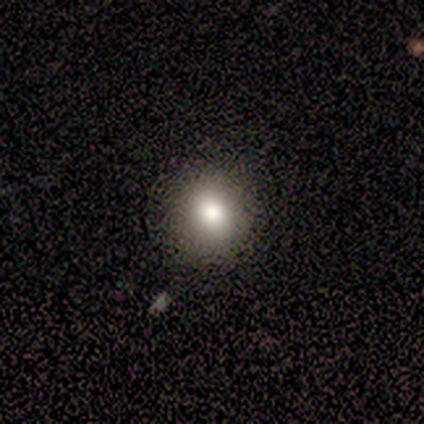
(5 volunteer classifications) Smooth or featured?
  - smooth: 100% *
  - featured or disk: 0%
  - star or artifact: 0%
How rounded?
  - round: 100% *
  - in between: 0%
  - cigar-shaped: 0%
Merging?
  - none: 100% *
  - minor disturbance: 0%
  - major disturbance: 0%
  - merger: 0%